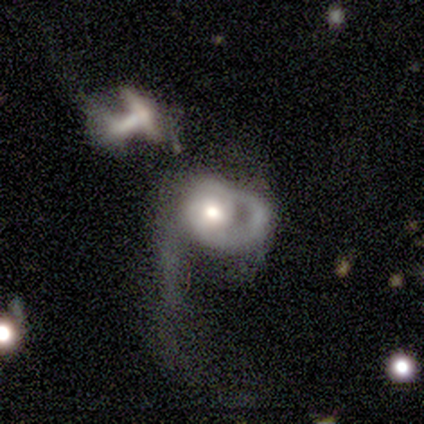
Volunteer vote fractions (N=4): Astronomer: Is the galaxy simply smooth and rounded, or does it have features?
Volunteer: featured or disk — 100%.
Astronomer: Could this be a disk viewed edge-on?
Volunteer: no — 100%.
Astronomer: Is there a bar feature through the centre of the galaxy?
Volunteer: no — 75%.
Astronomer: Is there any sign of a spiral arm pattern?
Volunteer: yes — 100%.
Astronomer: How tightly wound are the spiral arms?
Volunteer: loose — 50%.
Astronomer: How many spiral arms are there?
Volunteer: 1 — 75%.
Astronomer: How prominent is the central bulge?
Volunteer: large — 50%.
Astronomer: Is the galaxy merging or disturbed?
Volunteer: major disturbance — 75%.